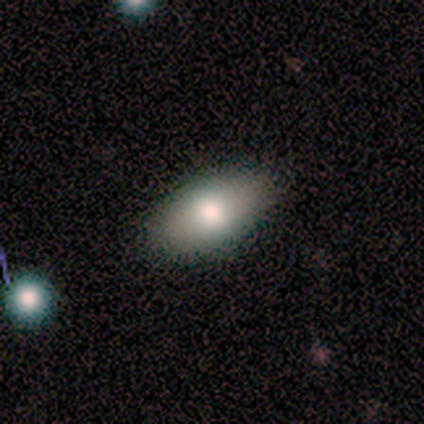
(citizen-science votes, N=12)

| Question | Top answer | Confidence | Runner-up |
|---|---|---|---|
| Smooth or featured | smooth | 83% | featured or disk (8%) |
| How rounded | in between | 80% | round (10%) |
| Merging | none | 91% | major disturbance (9%) |